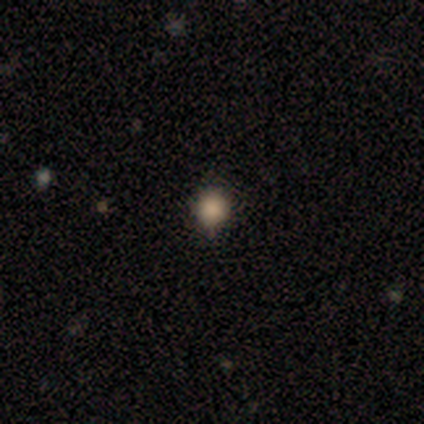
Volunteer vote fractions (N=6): A smooth galaxy with no disk features (50%, tied with star or artifact) that is round (67%). Merging: minor disturbance (67%).